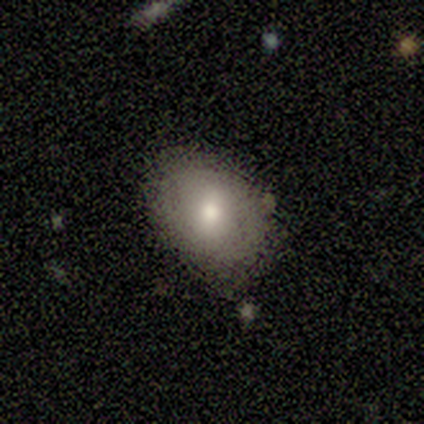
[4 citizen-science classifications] Overall: smooth (75%). How rounded: in between (100%). Merging: none (75%).